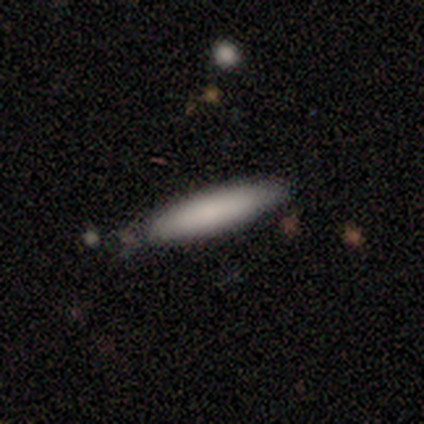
A smooth galaxy with no disk features (75%) that is cigar-shaped (67%). Merging: minor disturbance (67%).